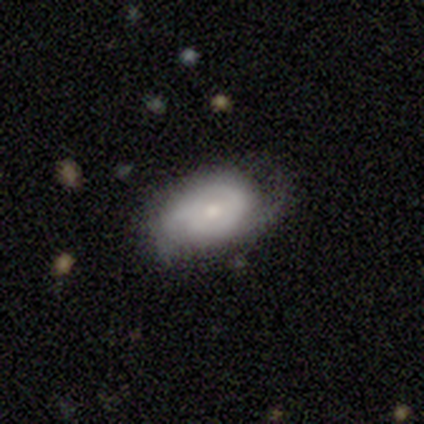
Smooth or featured? 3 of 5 (60%) said featured or disk. Edge-on disk? 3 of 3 (100%) said no. Bar? 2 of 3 (67%) said no. Spiral arms? 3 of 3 (100%) said yes. Spiral winding? 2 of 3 (67%) said tight. Spiral arm count? 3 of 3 (100%) said 2. Bulge size? 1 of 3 (33%, tied with moderate and small) said large. Merging? 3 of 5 (60%) said minor disturbance.